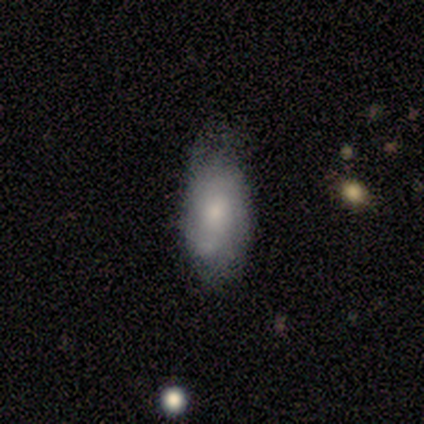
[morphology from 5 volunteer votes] This is clearly a smooth galaxy (100%). How rounded: clearly in between (80%). Merging: likely none (60%).